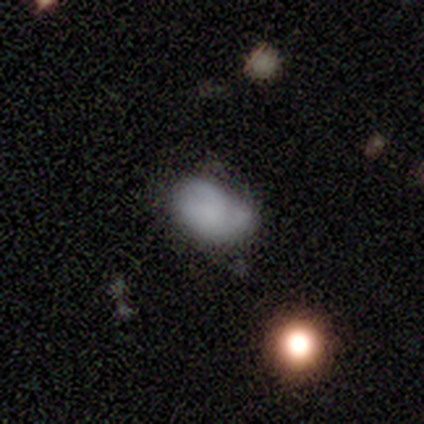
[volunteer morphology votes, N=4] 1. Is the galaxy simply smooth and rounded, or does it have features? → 50% smooth (tied), 50% featured or disk (tied), 0% star or artifact.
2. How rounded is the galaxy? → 100% in between, 0% round, 0% cigar-shaped.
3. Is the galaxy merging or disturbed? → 75% minor disturbance, 25% major disturbance, 0% none, 0% merger.